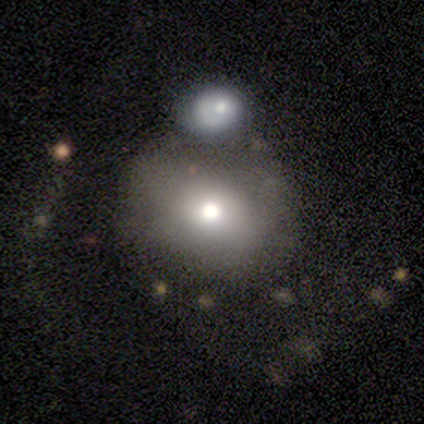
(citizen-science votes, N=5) This appears to be a smooth galaxy with no disk features (80%) that is round (50%, tied with in between). Merging: none (40%, tied with merger).